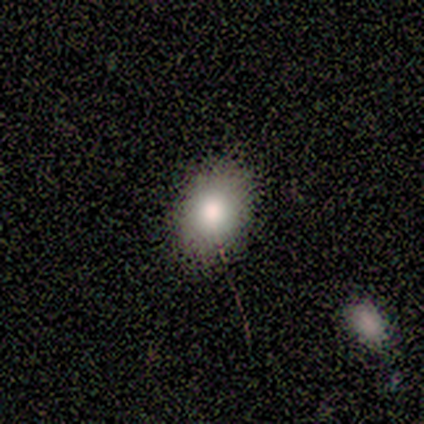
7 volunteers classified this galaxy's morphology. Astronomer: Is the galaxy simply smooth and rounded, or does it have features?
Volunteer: smooth — 71%.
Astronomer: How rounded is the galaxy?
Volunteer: in between — 80%.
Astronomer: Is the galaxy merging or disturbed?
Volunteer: none — 100%.